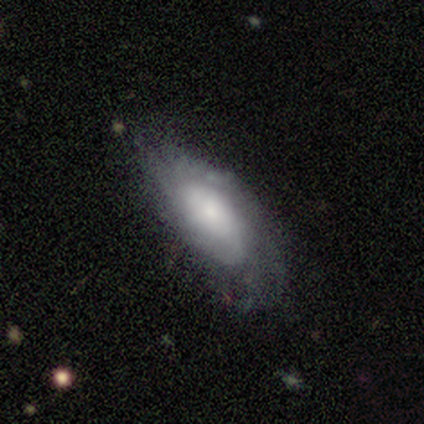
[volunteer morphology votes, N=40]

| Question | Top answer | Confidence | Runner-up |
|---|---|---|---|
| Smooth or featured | featured or disk | 65% | smooth (30%) |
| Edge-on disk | no | 92% | yes (8%) |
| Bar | no | 71% | weak (25%) |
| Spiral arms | yes | 79% | no (21%) |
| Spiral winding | tight | 53% | medium (26%) |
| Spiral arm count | can't tell | 63% | 1 (16%) |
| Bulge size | large | 29% | tied: moderate (29%), small (29%) |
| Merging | none | 58% | minor disturbance (21%) |